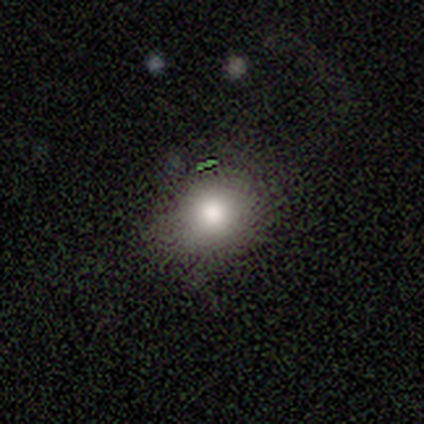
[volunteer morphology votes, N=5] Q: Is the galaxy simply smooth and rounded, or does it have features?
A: smooth — 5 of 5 (100%).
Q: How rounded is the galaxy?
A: round — 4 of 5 (80%).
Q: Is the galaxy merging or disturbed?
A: none — 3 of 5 (60%).